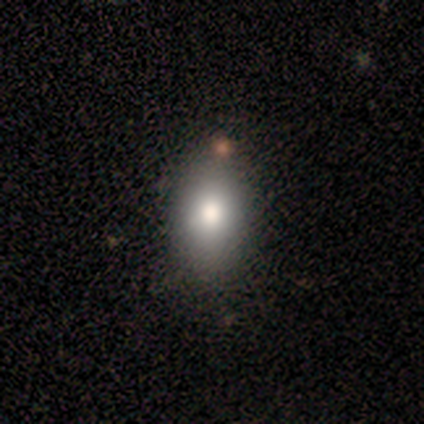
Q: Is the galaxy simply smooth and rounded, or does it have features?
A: smooth — 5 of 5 (100%).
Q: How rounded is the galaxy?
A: in between — 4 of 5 (80%).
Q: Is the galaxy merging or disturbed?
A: none — 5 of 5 (100%).